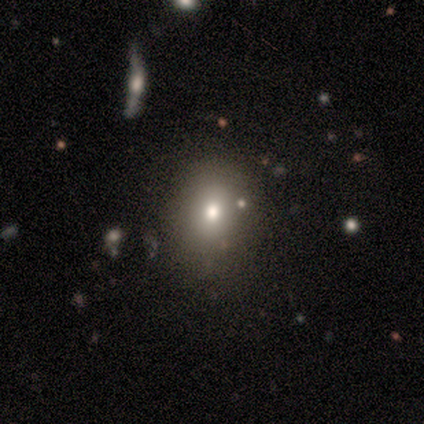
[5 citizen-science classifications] Smooth or featured? smooth (40%, tied with featured or disk)
How rounded? round (100%)
Merging? none (75%)